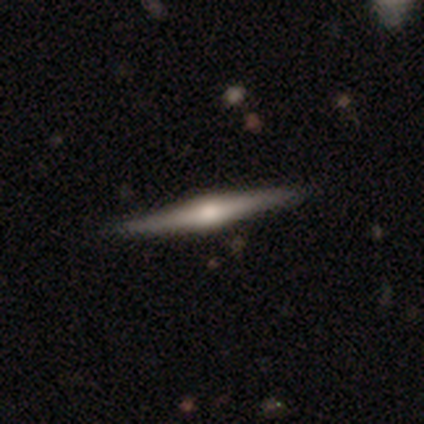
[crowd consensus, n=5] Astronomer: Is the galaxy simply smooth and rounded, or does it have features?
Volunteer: featured or disk — 100%.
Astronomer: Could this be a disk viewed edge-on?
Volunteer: yes — 100%.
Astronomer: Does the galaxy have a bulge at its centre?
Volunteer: rounded — 100%.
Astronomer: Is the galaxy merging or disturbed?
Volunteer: none — 80%.